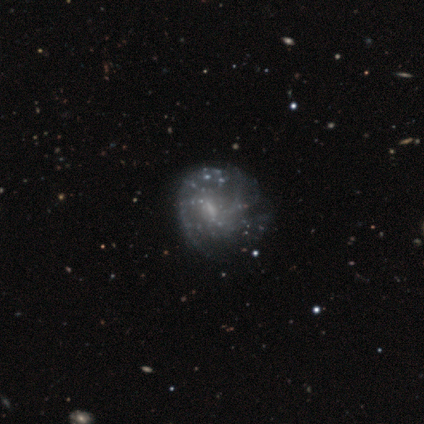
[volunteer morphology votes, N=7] Smooth or featured?
  - featured or disk: 86% *
  - smooth: 14%
  - star or artifact: 0%
Edge-on disk?
  - no: 100% *
  - yes: 0%
Bar?
  - no: 50% *
  - weak: 33%
  - strong: 17%
Spiral arms?
  - yes: 50% * (tied)
  - no: 50% * (tied)
Spiral winding?
  - loose: 67% *
  - tight: 33%
  - medium: 0%
Spiral arm count?
  - 2: 33% * (tied)
  - 3: 33% * (tied)
  - can't tell: 33% * (tied)
  - 1: 0%
  - 4: 0%
  - more than 4: 0%
Bulge size?
  - moderate: 67% *
  - small: 17%
  - none: 17%
  - dominant: 0%
  - large: 0%
Merging?
  - none: 71% *
  - minor disturbance: 14%
  - major disturbance: 14%
  - merger: 0%